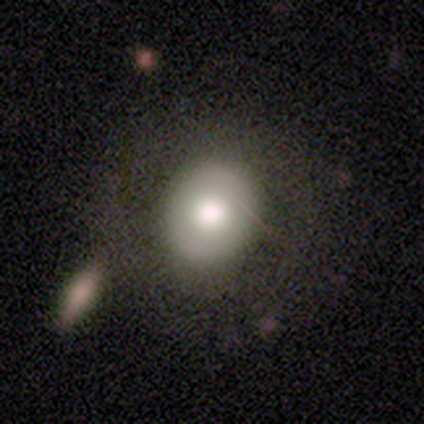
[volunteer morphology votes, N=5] Smooth or featured?
  - smooth: 60% *
  - featured or disk: 40%
  - star or artifact: 0%
How rounded?
  - round: 100% *
  - in between: 0%
  - cigar-shaped: 0%
Merging?
  - none: 100% *
  - minor disturbance: 0%
  - major disturbance: 0%
  - merger: 0%